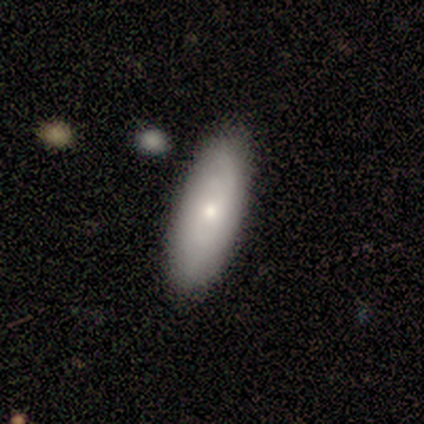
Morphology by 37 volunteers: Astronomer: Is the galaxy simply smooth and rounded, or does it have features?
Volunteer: smooth — 62%.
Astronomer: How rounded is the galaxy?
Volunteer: in between — 70%.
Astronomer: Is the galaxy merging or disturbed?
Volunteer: none — 91%.